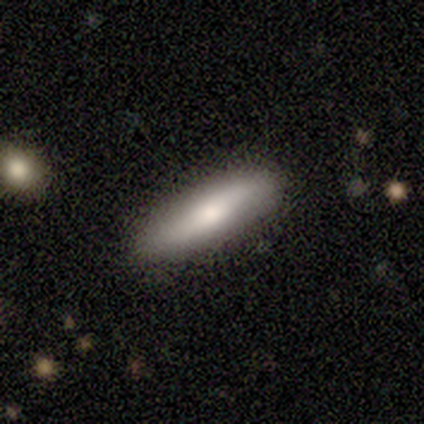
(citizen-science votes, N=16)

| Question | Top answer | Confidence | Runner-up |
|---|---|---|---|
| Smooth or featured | smooth | 56% | featured or disk (44%) |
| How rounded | cigar-shaped | 67% | in between (33%) |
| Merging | none | 94% | minor disturbance (6%) |